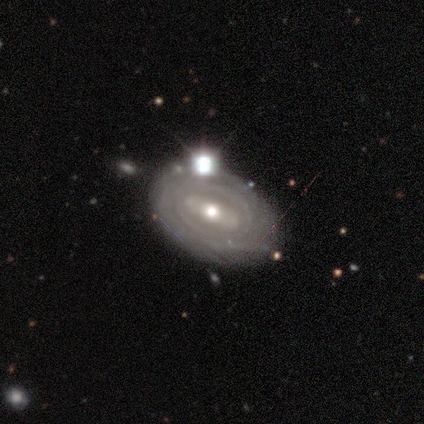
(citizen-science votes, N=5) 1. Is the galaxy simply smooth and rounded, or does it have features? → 80% featured or disk, 20% smooth, 0% star or artifact.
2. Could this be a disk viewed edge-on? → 100% no, 0% yes.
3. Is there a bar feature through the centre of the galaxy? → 50% weak, 25% strong, 25% no.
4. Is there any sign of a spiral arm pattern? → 75% yes, 25% no.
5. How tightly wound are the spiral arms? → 67% tight, 33% medium, 0% loose.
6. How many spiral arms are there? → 67% can't tell, 33% 1, 0% 2, 0% 3, 0% 4, 0% more than 4.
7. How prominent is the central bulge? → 75% moderate, 25% small, 0% dominant, 0% large, 0% none.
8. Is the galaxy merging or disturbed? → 80% none, 20% merger, 0% minor disturbance, 0% major disturbance.